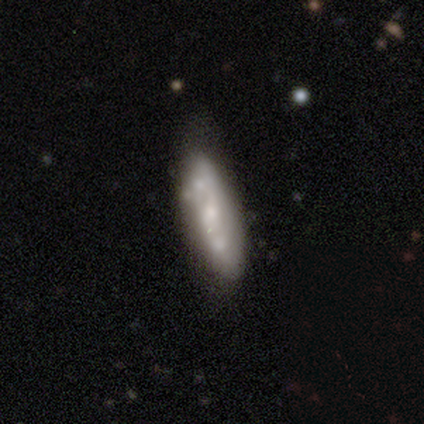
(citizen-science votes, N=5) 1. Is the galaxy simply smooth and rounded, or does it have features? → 80% featured or disk, 20% smooth, 0% star or artifact.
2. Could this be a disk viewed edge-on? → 75% no, 25% yes.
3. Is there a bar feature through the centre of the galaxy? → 67% no, 33% weak, 0% strong.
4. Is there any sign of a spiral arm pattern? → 67% no, 33% yes.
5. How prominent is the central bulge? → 33% moderate (tied), 33% small (tied), 33% none (tied), 0% dominant, 0% large.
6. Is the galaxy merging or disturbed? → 40% none (tied), 40% minor disturbance (tied), 20% major disturbance, 0% merger.